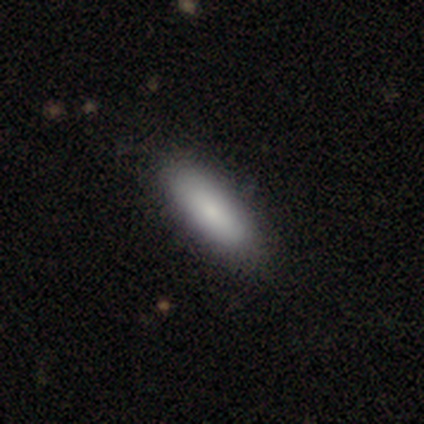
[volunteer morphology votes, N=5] smooth-or-featured: smooth: 100% | featured or disk: 0% | star or artifact: 0%
  how-rounded: in between: 60% | cigar-shaped: 40% | round: 0%
  merging: none: 80% | minor disturbance: 20% | major disturbance: 0% | merger: 0%